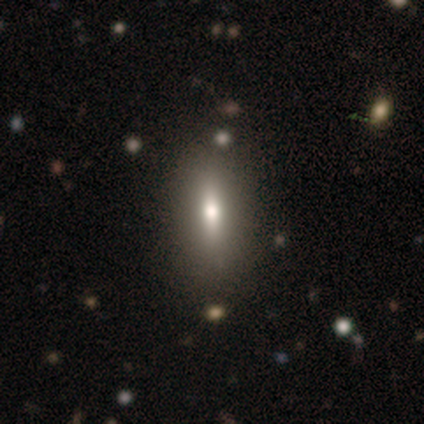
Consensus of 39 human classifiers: Smooth or featured: smooth — 59% (featured or disk — 28%)
How rounded: in between — 48% (tied with cigar-shaped — 48%)
Merging: none — 79% (minor disturbance — 12%)